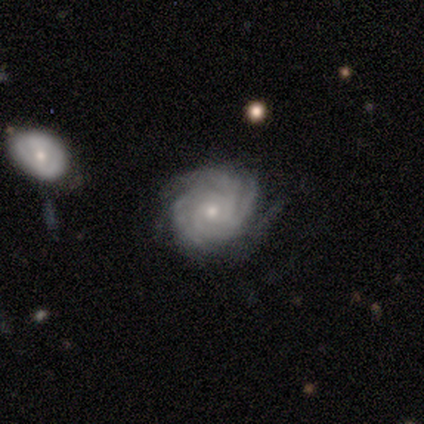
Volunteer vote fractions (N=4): Smooth or featured?
  - featured or disk: 100% *
  - smooth: 0%
  - star or artifact: 0%
Edge-on disk?
  - no: 100% *
  - yes: 0%
Bar?
  - weak: 50% * (tied)
  - no: 50% * (tied)
  - strong: 0%
Spiral arms?
  - yes: 100% *
  - no: 0%
Spiral winding?
  - tight: 100% *
  - medium: 0%
  - loose: 0%
Spiral arm count?
  - 3: 50% * (tied)
  - more than 4: 50% * (tied)
  - 1: 0%
  - 2: 0%
  - 4: 0%
  - can't tell: 0%
Bulge size?
  - moderate: 50% * (tied)
  - small: 50% * (tied)
  - dominant: 0%
  - large: 0%
  - none: 0%
Merging?
  - none: 100% *
  - minor disturbance: 0%
  - major disturbance: 0%
  - merger: 0%